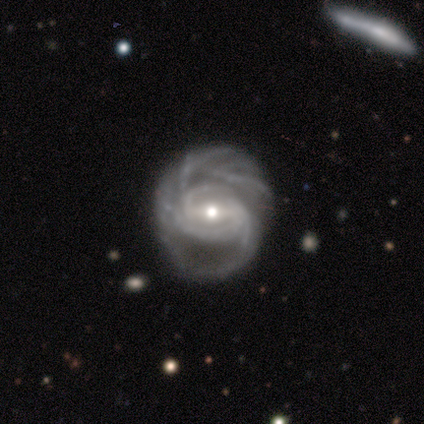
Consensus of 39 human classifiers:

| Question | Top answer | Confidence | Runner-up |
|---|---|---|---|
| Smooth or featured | featured or disk | 95% | smooth (5%) |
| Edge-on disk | no | 100% | — |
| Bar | strong | 59% | weak (32%) |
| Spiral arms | yes | 97% | no (3%) |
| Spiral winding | medium | 50% | tight (47%) |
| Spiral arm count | more than 4 | 39% | can't tell (19%) |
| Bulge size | moderate | 68% | small (22%) |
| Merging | none | 36% | minor disturbance (23%) |